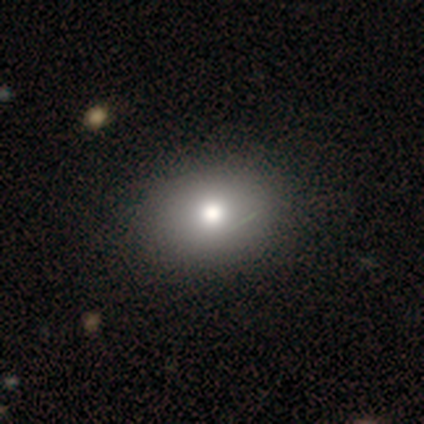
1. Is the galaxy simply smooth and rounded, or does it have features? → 75% smooth, 12% featured or disk, 12% star or artifact.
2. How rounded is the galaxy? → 70% in between, 30% round, 0% cigar-shaped.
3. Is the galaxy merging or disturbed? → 51% none, 6% major disturbance, 3% minor disturbance, 0% merger.